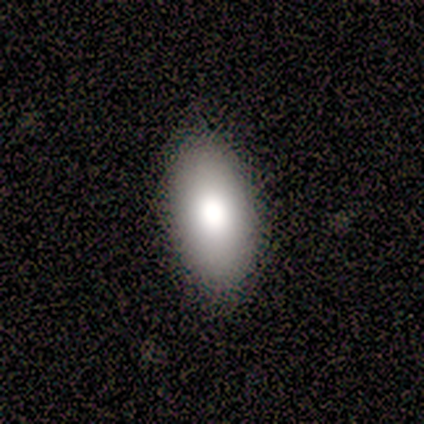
Morphology: type=smooth (80%); roundness=in between (100%); merging=none (100%).